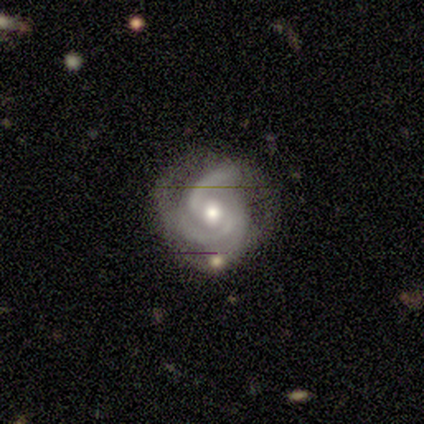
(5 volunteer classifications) Smooth or featured? 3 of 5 (60%) said featured or disk. Edge-on disk? 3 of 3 (100%) said no. Bar? 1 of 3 (33%, tied with weak and no) said strong. Spiral arms? 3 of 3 (100%) said yes. Spiral winding? 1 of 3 (33%, tied with medium and loose) said tight. Spiral arm count? 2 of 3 (67%) said can't tell. Bulge size? 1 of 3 (33%, tied with small and none) said moderate. Merging? 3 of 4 (75%) said none.